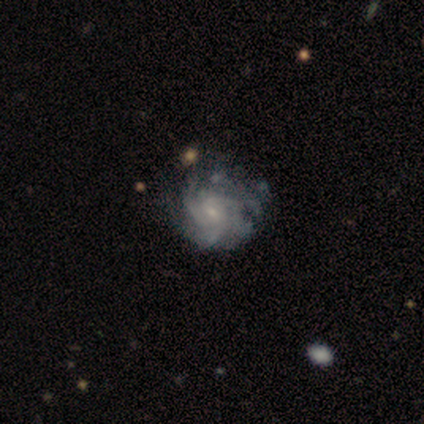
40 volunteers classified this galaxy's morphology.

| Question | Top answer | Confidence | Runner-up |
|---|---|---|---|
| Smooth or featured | featured or disk | 90% | smooth (5%) |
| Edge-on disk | no | 100% | — |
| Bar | no | 61% | weak (39%) |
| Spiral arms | yes | 97% | no (3%) |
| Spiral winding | tight | 54% | medium (40%) |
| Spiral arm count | can't tell | 51% | 3 (29%) |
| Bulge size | small | 72% | moderate (25%) |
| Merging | none | 53% | minor disturbance (21%) |